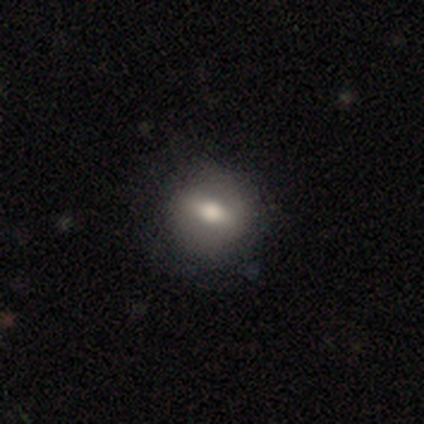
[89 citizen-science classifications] Q: Smooth or featured?
A: smooth (47%); runner-up: featured or disk (44%)
Q: How rounded?
A: round (71%); runner-up: in between (29%)
Q: Merging?
A: none (80%); runner-up: minor disturbance (11%)